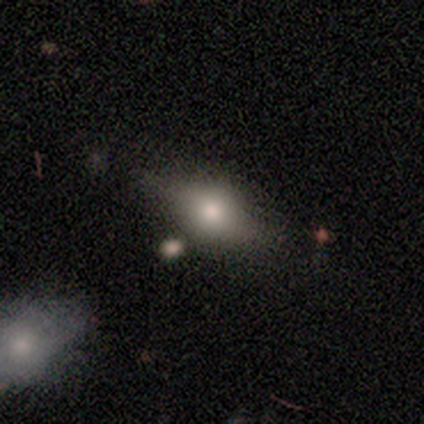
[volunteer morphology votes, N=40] smooth_or_featured: smooth (p=0.60) [alt: featured or disk p=0.35]
how_rounded: in between (p=0.71) [alt: round p=0.17]
merging: none (p=0.53) [alt: merger p=0.21]